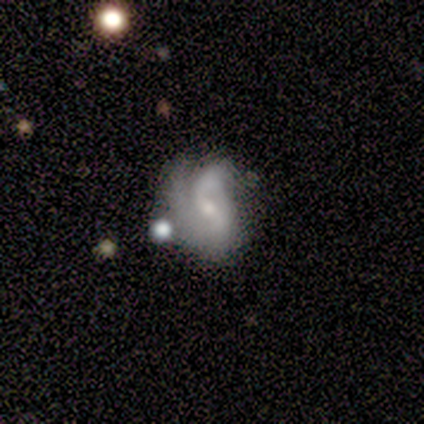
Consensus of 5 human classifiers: smooth_or_featured: featured or disk (p=0.80) [alt: smooth p=0.20]
disk_edge_on: no (p=1.00)
bar: weak (p=0.75) [alt: no p=0.25]
has_spiral_arms: yes (p=0.75) [alt: no p=0.25]
spiral_winding: medium (p=0.67) [alt: tight p=0.33]
spiral_arm_count: 3 (p=0.67) [alt: 2 p=0.33]
bulge_size: small (p=1.00)
merging: none (p=0.40) [tied with: major disturbance p=0.40]